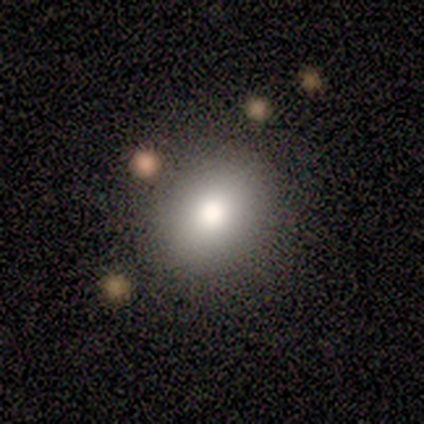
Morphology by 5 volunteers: This appears to be a smooth galaxy with no disk features (80%) that is round (100%). Merging: none (40%, tied with minor disturbance).